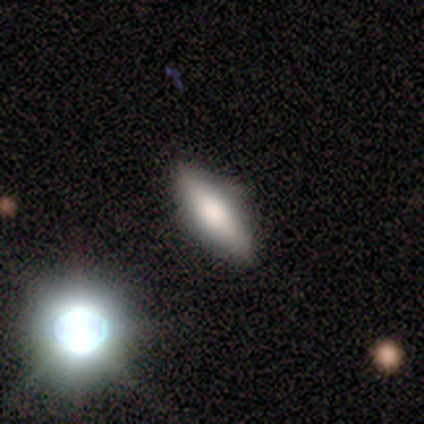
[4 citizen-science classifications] smooth-or-featured: smooth: 75% | star or artifact: 25% | featured or disk: 0%
  how-rounded: in between: 67% | cigar-shaped: 33% | round: 0%
  merging: none: 67% | minor disturbance: 33% | major disturbance: 0% | merger: 0%